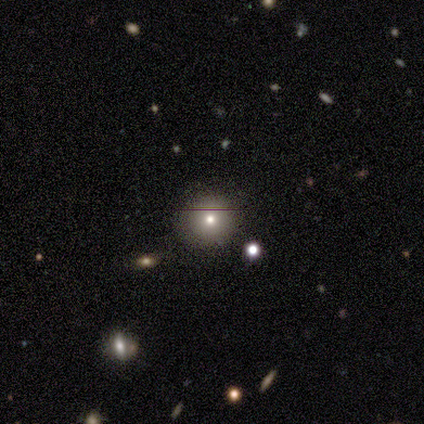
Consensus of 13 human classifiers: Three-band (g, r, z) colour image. It shows a smooth galaxy with no disk features (69%) that is round (89%). Merging: none (78%).